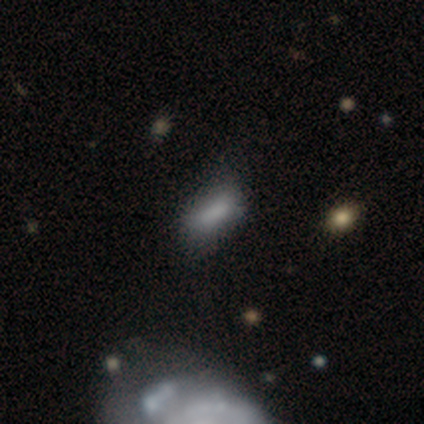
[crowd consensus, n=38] Smooth or featured: smooth — 82% (featured or disk — 16%)
How rounded: in between — 68% (cigar-shaped — 32%)
Merging: none — 46% (minor disturbance — 32%)